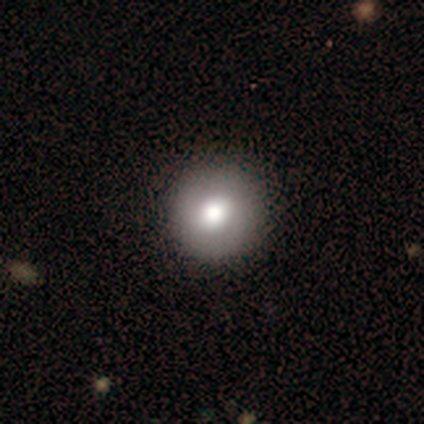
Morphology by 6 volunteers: Smooth or featured?
  - smooth: 67% *
  - featured or disk: 17%
  - star or artifact: 17%
How rounded?
  - round: 100% *
  - in between: 0%
  - cigar-shaped: 0%
Merging?
  - none: 80% *
  - merger: 20%
  - minor disturbance: 0%
  - major disturbance: 0%